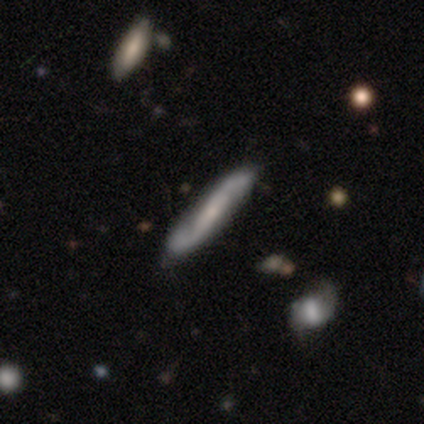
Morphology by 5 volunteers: Smooth or featured: featured or disk — 60% (smooth — 40%)
Edge-on disk: no — 67% (yes — 33%)
Bar: weak — 50% (tied with no — 50%)
Spiral arms: yes — 100%
Spiral winding: medium — 100%
Spiral arm count: 2 — 100%
Bulge size: small — 100%
Merging: none — 60% (minor disturbance — 20%)